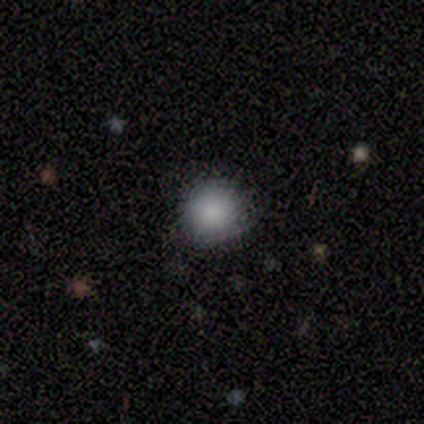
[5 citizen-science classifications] Smooth or featured? smooth (100%)
How rounded? round (100%)
Merging? none (100%)